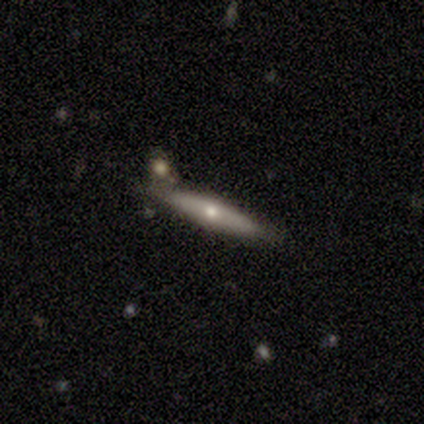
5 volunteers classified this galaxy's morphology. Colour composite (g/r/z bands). It shows a featured or disk galaxy (80%) viewed edge-on (75%) with a rounded central bulge (100%). Merging: none (80%).